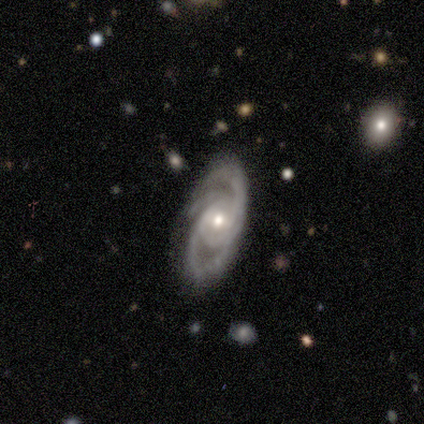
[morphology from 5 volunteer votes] featured or disk 80%, smooth 20%, star or artifact 0%. Down the decision tree: edge-on disk — no (100%); bar — weak (50%, tied with no); spiral arms — yes (100%); spiral arm count — 3 (50%); spiral winding — tight (75%); bulge size — moderate (75%); merging — none (100%).